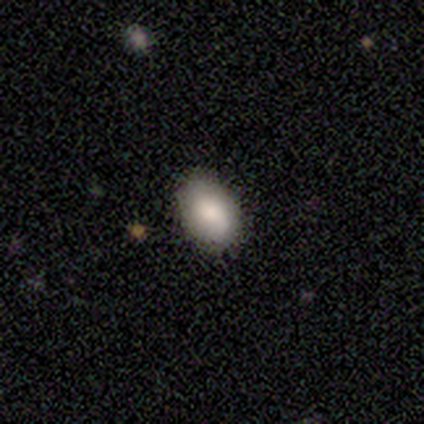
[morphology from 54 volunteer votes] smooth-or-featured: smooth: 76% | featured or disk: 13% | star or artifact: 11%
  how-rounded: in between: 88% | round: 12% | cigar-shaped: 0%
  merging: none: 90% | minor disturbance: 10% | major disturbance: 0% | merger: 0%